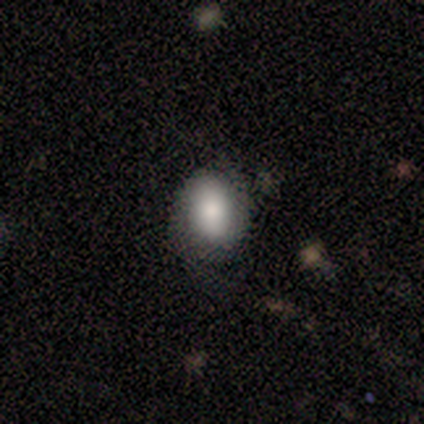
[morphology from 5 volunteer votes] smooth-or-featured: smooth: 100% | featured or disk: 0% | star or artifact: 0%
  how-rounded: in between: 80% | round: 20% | cigar-shaped: 0%
  merging: minor disturbance: 80% | none: 20% | major disturbance: 0% | merger: 0%